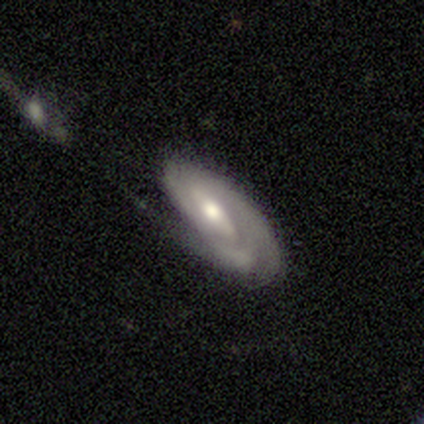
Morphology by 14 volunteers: A featured or disk galaxy (93%) with a weak bar (54%), tight (73%) spiral arms (85%) and a moderate central bulge (85%). Merging: minor disturbance (64%).